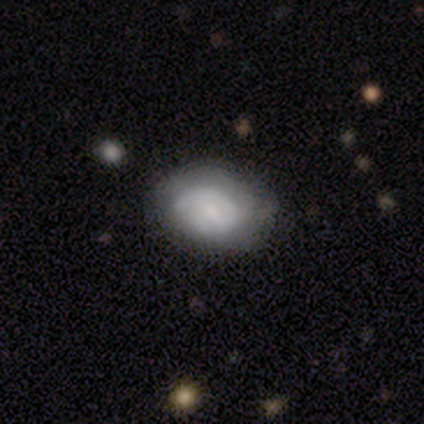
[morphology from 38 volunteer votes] smooth_or_featured: featured or disk (p=0.50) [alt: smooth p=0.39]
disk_edge_on: no (p=0.95) [alt: yes p=0.05]
bar: no (p=0.78) [alt: weak p=0.22]
has_spiral_arms: yes (p=0.72) [alt: no p=0.28]
spiral_winding: tight (p=0.62) [alt: medium p=0.23]
spiral_arm_count: 1 (p=0.38) [alt: 2 p=0.23]
bulge_size: small (p=0.39) [alt: moderate p=0.33]
merging: none (p=0.62) [alt: minor disturbance p=0.26]